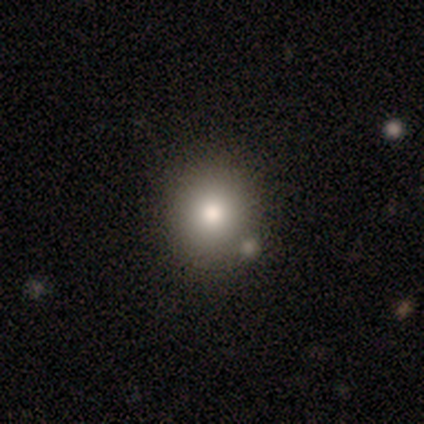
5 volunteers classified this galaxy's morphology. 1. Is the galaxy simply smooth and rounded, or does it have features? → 80% smooth, 20% featured or disk, 0% star or artifact.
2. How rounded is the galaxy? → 100% round, 0% in between, 0% cigar-shaped.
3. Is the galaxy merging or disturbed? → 80% none, 20% minor disturbance, 0% major disturbance, 0% merger.